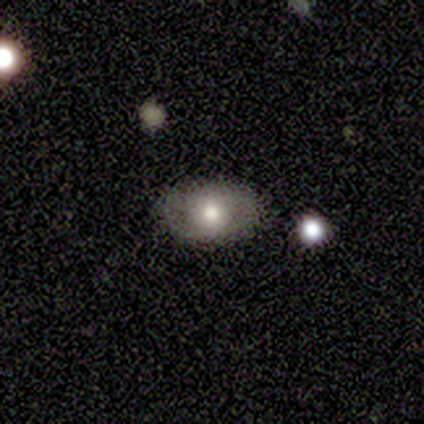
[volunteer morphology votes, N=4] Smooth or featured? 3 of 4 (75%) said smooth. How rounded? 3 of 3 (100%) said in between. Merging? 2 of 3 (67%) said none.